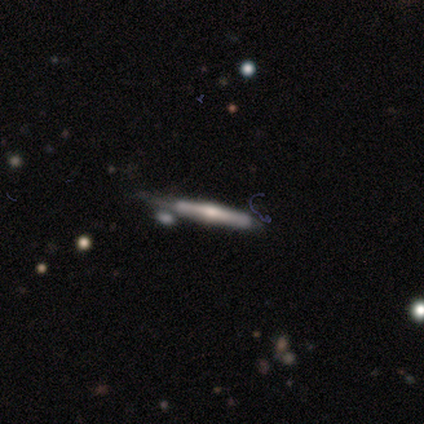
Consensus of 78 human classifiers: Morphology: type=featured or disk (74%); edge-on=yes (100%); edge-on bulge=rounded (86%); merging=none (48%).